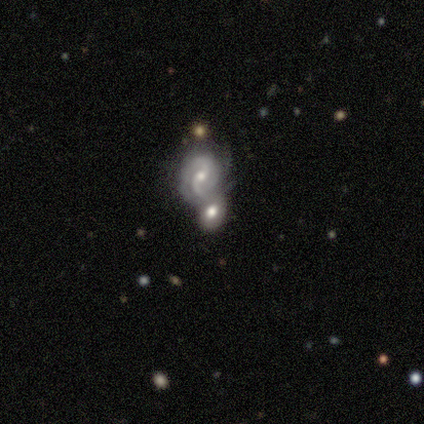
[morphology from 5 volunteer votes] Smooth or featured? 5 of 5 (100%) said featured or disk. Edge-on disk? 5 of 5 (100%) said no. Bar? 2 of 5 (40%, tied with weak) said strong. Spiral arms? 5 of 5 (100%) said yes. Spiral winding? 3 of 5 (60%) said medium. Spiral arm count? 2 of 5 (40%) said 2. Bulge size? 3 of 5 (60%) said moderate. Merging? 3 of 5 (60%) said none.